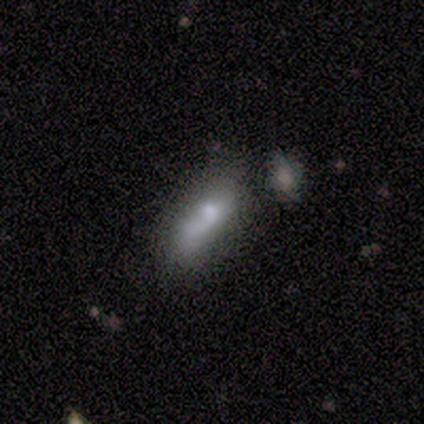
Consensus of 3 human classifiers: A smooth galaxy with no disk features (67%) that is cigar-shaped (100%). Merging: none (33%, tied with major disturbance and merger).